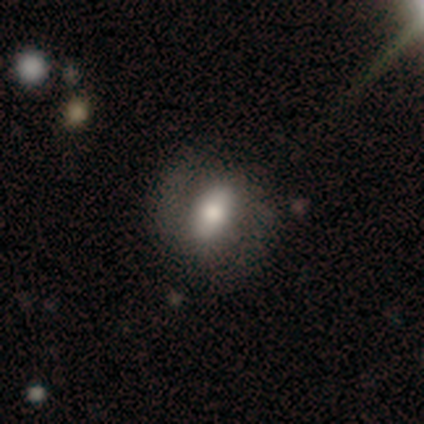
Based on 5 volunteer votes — Smooth or featured? smooth (60%)
How rounded? in between (100%)
Merging? none (80%)